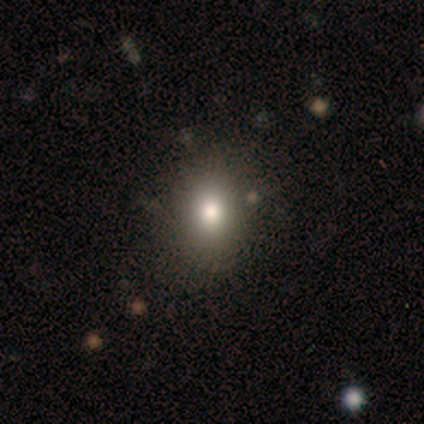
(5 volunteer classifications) This appears to be a smooth galaxy with no disk features (80%) that is in between round and cigar-shaped (75%). Merging: none (80%).